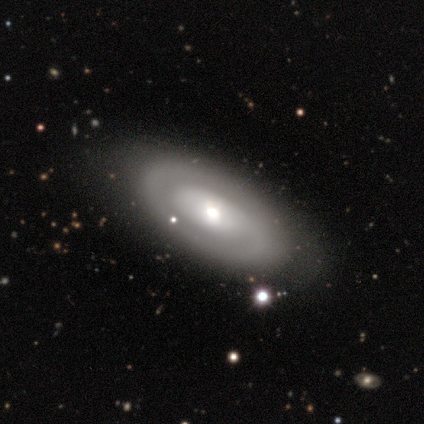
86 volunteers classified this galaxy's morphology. smooth_or_featured: featured or disk (p=0.65) [alt: smooth p=0.31]
disk_edge_on: no (p=0.88) [alt: yes p=0.12]
bar: no (p=0.80) [alt: weak p=0.16]
has_spiral_arms: yes (p=0.51) [alt: no p=0.49]
spiral_winding: tight (p=0.44) [alt: medium p=0.32]
spiral_arm_count: 1 (p=0.44) [alt: 2 p=0.32]
bulge_size: moderate (p=0.65) [alt: large p=0.16]
merging: none (p=0.80) [alt: minor disturbance p=0.16]